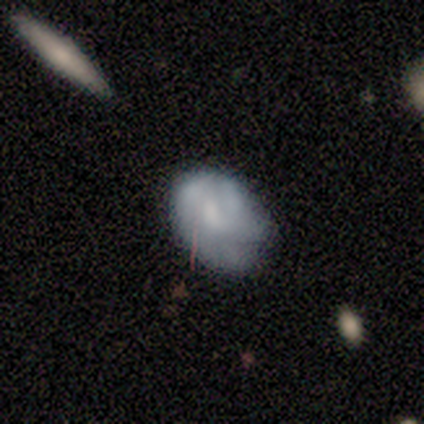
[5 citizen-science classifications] Overall: smooth (100%). How rounded: in between (80%). Merging: minor disturbance (60%; none 40%).